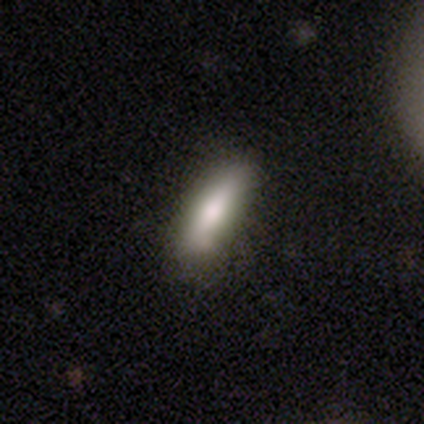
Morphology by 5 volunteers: Volunteers were most divided on "how rounded" (2-way tie): in between: 50%, cigar-shaped: 50%, round: 0%. More confident: merging — none (100%); smooth or featured — smooth (80%).